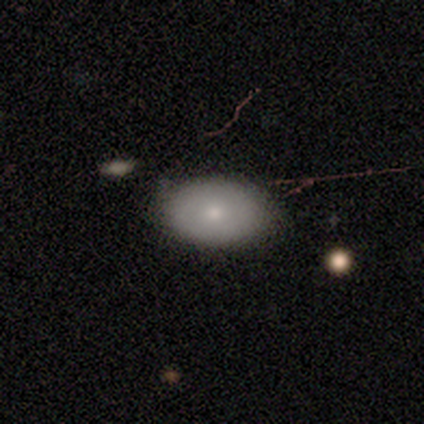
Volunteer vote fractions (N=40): smooth-or-featured: smooth: 72% | featured or disk: 20% | star or artifact: 8%
  how-rounded: in between: 97% | round: 3% | cigar-shaped: 0%
  merging: none: 59% | minor disturbance: 32% | merger: 8% | major disturbance: 0%